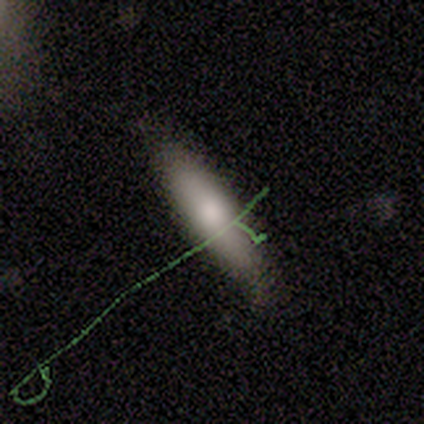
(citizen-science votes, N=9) smooth_or_featured: smooth (p=0.67) [alt: featured or disk p=0.33]
how_rounded: cigar-shaped (p=0.83) [alt: in between p=0.17]
merging: none (p=0.67) [alt: minor disturbance p=0.22]